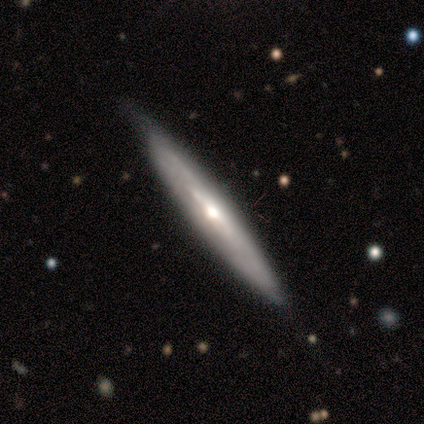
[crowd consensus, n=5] Smooth or featured: featured or disk — 80% (smooth — 20%)
Edge-on disk: yes — 100%
Edge-on bulge: rounded — 50% (boxy — 25%)
Merging: none — 80% (minor disturbance — 20%)